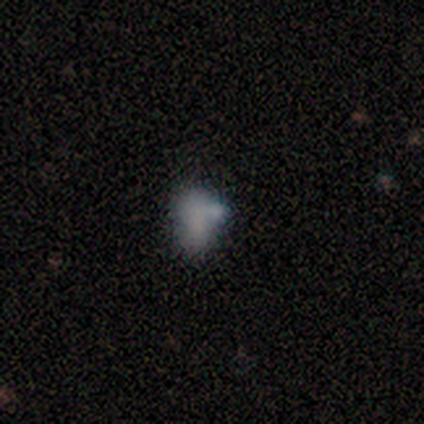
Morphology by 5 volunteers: Smooth or featured? 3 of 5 (60%) said smooth. How rounded? 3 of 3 (100%) said in between. Merging? 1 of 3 (33%, tied with minor disturbance and merger) said none.